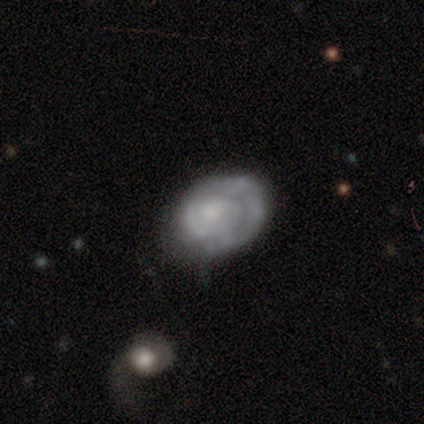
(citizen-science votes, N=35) A featured or disk galaxy (80%) with no bar (79%), 2 (32%, tied with can't tell) tight (80%) spiral arms (89%) and a moderate central bulge (43%).

Vote fractions:
- Smooth or featured? featured or disk: 80% / smooth: 14% / star or artifact: 6%
- Edge-on disk? no: 100% / yes: 0%
- Bar? no: 79% / weak: 21% / strong: 0%
- Spiral arms? yes: 89% / no: 11%
- Spiral winding? tight: 80% / medium: 20% / loose: 0%
- Spiral arm count? 2: 32% (tied) / can't tell: 32% (tied) / 1: 28% / 3: 4% / more than 4: 4% / 4: 0%
- Bulge size? moderate: 43% / small: 36% / none: 18% / large: 4% / dominant: 0%
- Merging? none: 58% / minor disturbance: 27% / major disturbance: 15% / merger: 0%